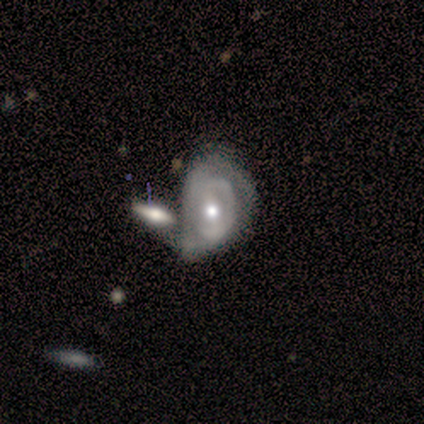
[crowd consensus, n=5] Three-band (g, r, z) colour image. It shows a featured or disk galaxy (80%) with a weak bar (67%), no spiral arms (67%) and a small central bulge (67%). Merging: merger (60%).